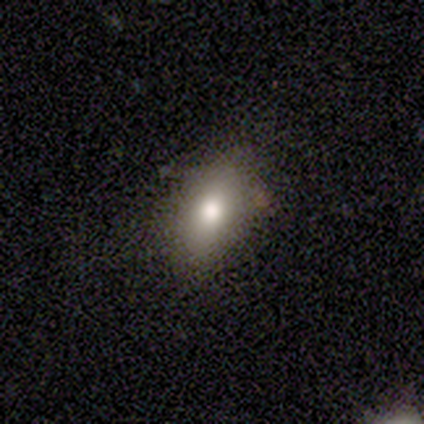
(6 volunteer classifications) Smooth or featured?
  - smooth: 50% * (tied)
  - star or artifact: 50% * (tied)
  - featured or disk: 0%
How rounded?
  - in between: 100% *
  - round: 0%
  - cigar-shaped: 0%
Merging?
  - none: 100% *
  - minor disturbance: 0%
  - major disturbance: 0%
  - merger: 0%